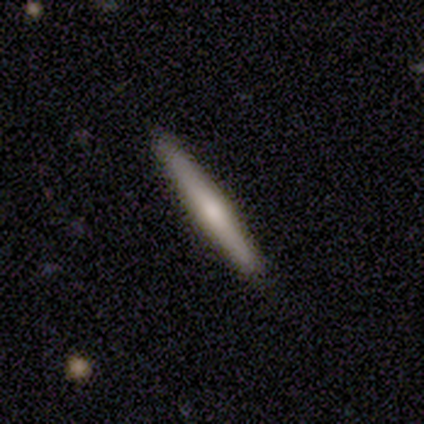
Smooth or featured? smooth (49%)
How rounded? cigar-shaped (100%)
Merging? none (81%)